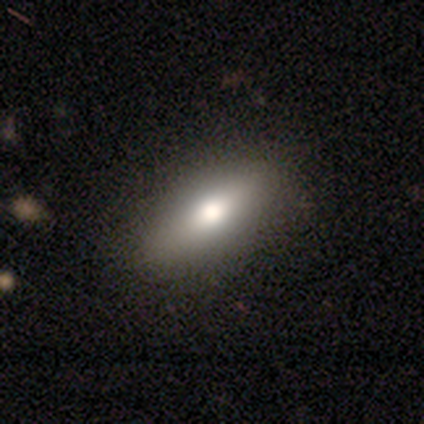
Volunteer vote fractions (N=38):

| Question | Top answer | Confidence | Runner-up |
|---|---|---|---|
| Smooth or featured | smooth | 55% | featured or disk (39%) |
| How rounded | in between | 81% | cigar-shaped (19%) |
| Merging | none | 89% | minor disturbance (8%) |